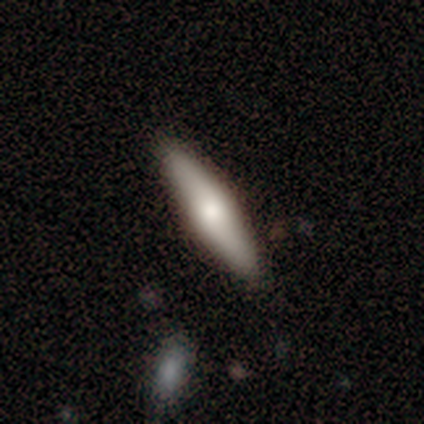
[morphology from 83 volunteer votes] smooth_or_featured: smooth (p=0.61) [alt: featured or disk p=0.34]
how_rounded: cigar-shaped (p=0.73) [alt: in between p=0.27]
merging: none (p=0.53) [alt: minor disturbance p=0.06]